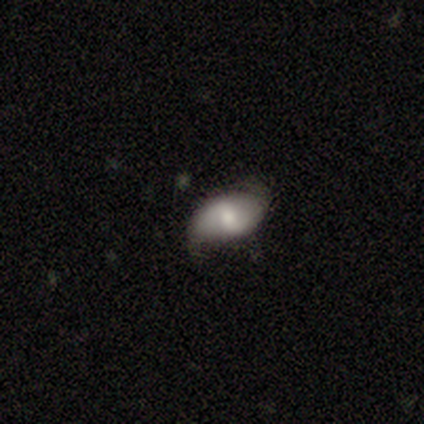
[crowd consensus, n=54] This is possibly a featured or disk galaxy (56%). It is clearly not viewed edge-on (100%). Bar: possibly weak (47%). Spiral arm pattern: clearly yes (87%). Spiral arm count: clearly 2 (96%). Spiral winding: marginally loose (42%). Central bulge: likely moderate (70%). Merging: likely none (72%).